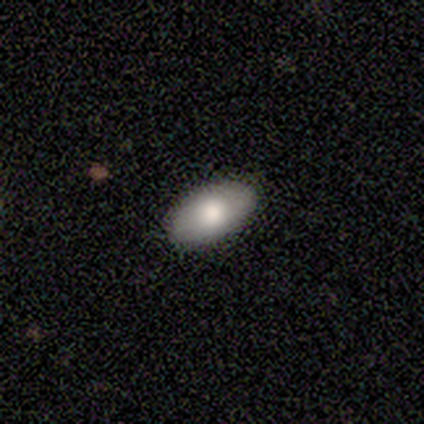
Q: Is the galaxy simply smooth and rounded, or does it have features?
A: smooth — 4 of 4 (100%).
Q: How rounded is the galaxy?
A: in between — 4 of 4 (100%).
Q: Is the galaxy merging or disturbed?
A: none — 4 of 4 (100%).